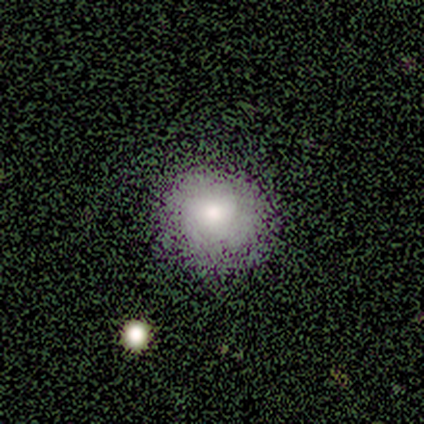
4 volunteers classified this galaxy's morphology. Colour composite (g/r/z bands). It shows a smooth galaxy with no disk features (75%) that is round (100%). Merging: none (100%).